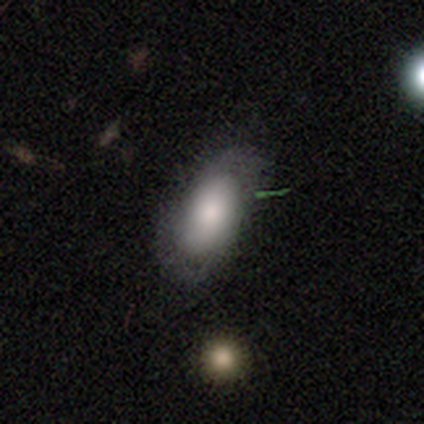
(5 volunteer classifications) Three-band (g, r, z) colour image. It shows a smooth galaxy with no disk features (60%) that is in between round and cigar-shaped (100%). Merging: minor disturbance (75%).